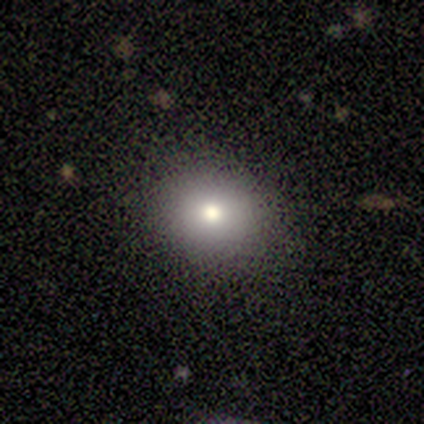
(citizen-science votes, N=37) A smooth galaxy with no disk features (73%) that is round (56%). Merging: none (97%).